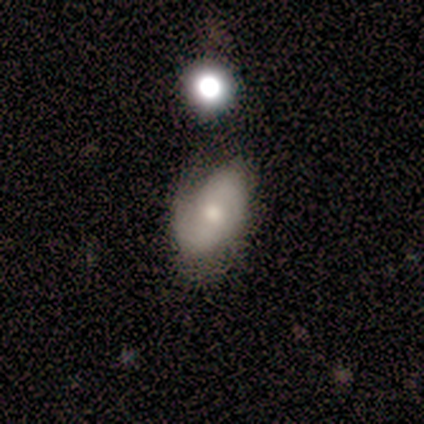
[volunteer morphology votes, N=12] smooth 50%, featured or disk 42%, star or artifact 8%. Down the decision tree: how rounded — in between (100%); merging — none (55%).